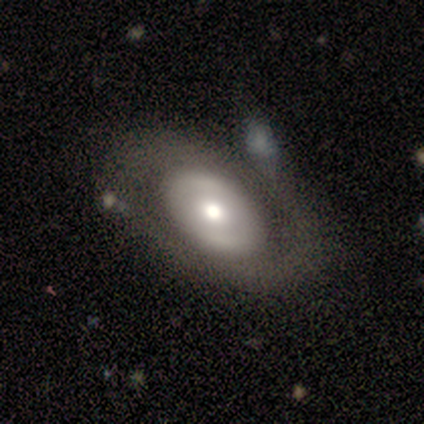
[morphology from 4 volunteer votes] smooth_or_featured: featured or disk (p=0.75) [alt: smooth p=0.25]
disk_edge_on: no (p=0.67) [alt: yes p=0.33]
bar: weak (p=0.50) [tied with: no p=0.50]
has_spiral_arms: yes (p=0.50) [tied with: no p=0.50]
spiral_winding: medium (p=1.00)
spiral_arm_count: 2 (p=1.00)
bulge_size: large (p=0.50) [tied with: moderate p=0.50]
merging: none (p=0.50) [alt: minor disturbance p=0.25]